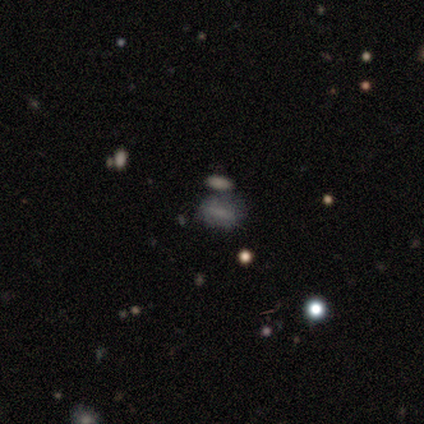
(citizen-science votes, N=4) A smooth galaxy with no disk features (75%) that is in between round and cigar-shaped (100%). Merging: none (33%, tied with minor disturbance and merger).